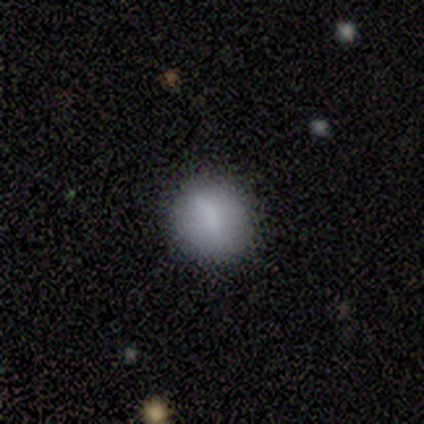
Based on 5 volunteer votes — Morphology: type=smooth (100%); roundness=round (60%); merging=none (80%).